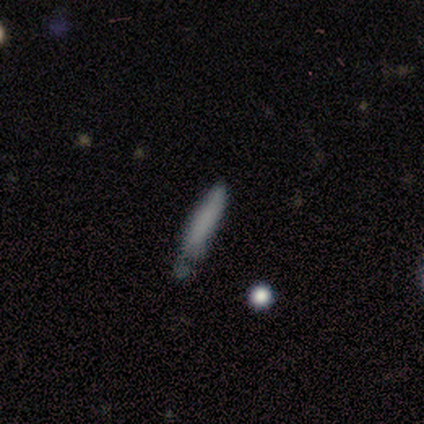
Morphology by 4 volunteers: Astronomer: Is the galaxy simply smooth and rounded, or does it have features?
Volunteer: smooth — 75%.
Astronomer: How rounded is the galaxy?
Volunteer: cigar-shaped — 100%.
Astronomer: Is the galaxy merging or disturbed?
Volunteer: none — 50%, tied with minor disturbance at 50%.